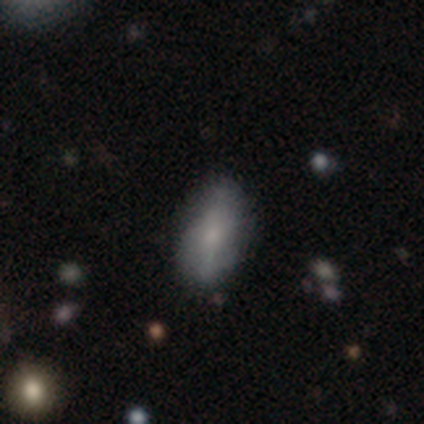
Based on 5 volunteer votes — Morphology: type=smooth (80%); roundness=in between (100%); merging=minor disturbance (60%).